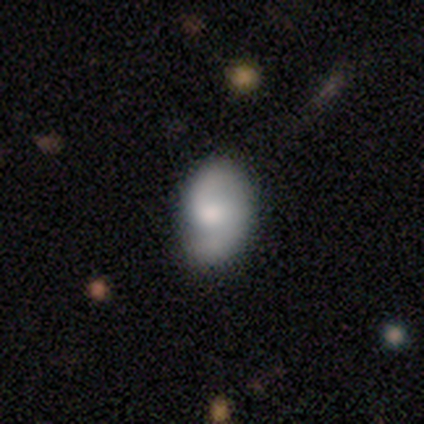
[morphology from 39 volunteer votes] This appears to be a featured or disk galaxy (62%) with no bar (65%), 2 (86%) medium (59%) spiral arms (96%) and a moderate central bulge (48%). Merging: none (61%).